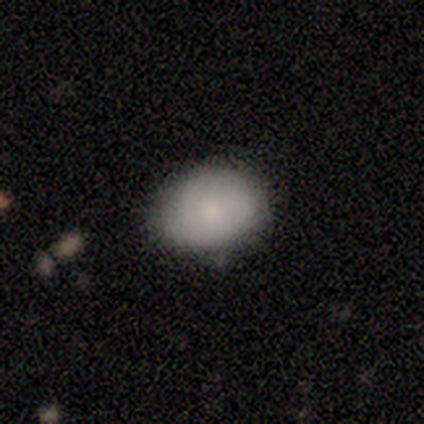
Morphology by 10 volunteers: smooth-or-featured: smooth: 80% | star or artifact: 20% | featured or disk: 0%
  how-rounded: in between: 75% | round: 25% | cigar-shaped: 0%
  merging: none: 100% | minor disturbance: 0% | major disturbance: 0% | merger: 0%